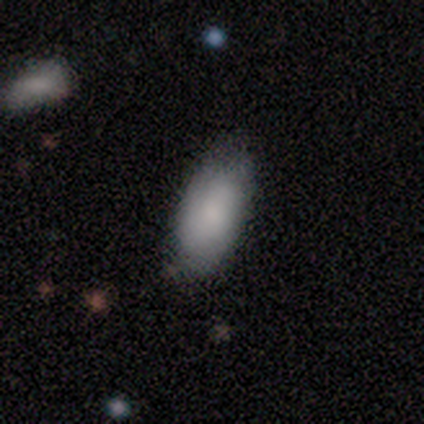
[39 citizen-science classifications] Overall: smooth (82%). How rounded: in between (88%). Merging: none (79%).